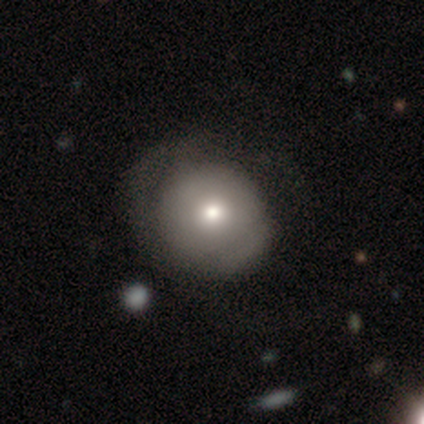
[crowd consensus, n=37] A smooth galaxy with no disk features (65%) that is round (88%). Merging: none (52%).